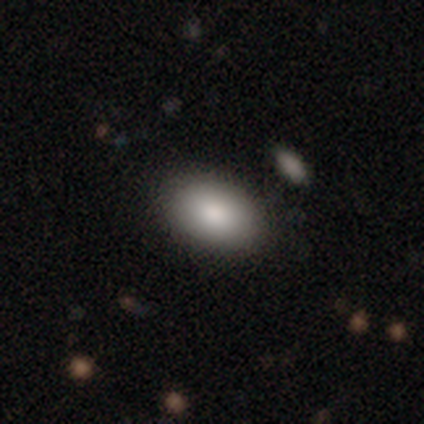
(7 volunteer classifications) smooth_or_featured: smooth (p=1.00)
how_rounded: in between (p=0.86) [alt: round p=0.14]
merging: none (p=0.71) [alt: minor disturbance p=0.29]